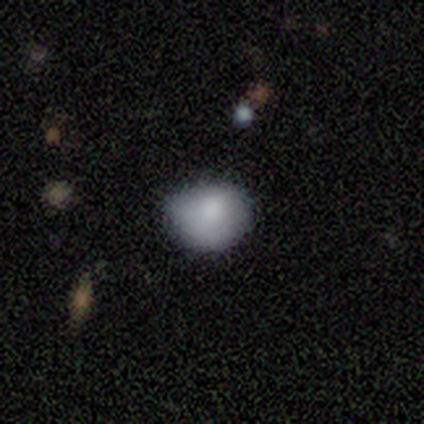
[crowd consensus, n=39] smooth_or_featured: smooth (p=0.74) [alt: featured or disk p=0.15]
how_rounded: round (p=0.62) [alt: in between p=0.38]
merging: minor disturbance (p=0.51) [alt: none p=0.43]